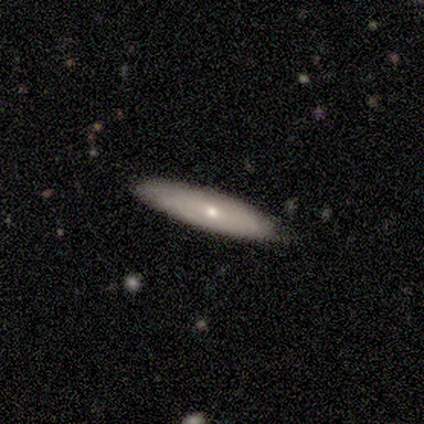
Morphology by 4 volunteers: Smooth or featured?
  - smooth: 50% * (tied)
  - featured or disk: 50% * (tied)
  - star or artifact: 0%
How rounded?
  - cigar-shaped: 100% *
  - round: 0%
  - in between: 0%
Merging?
  - none: 100% *
  - minor disturbance: 0%
  - major disturbance: 0%
  - merger: 0%